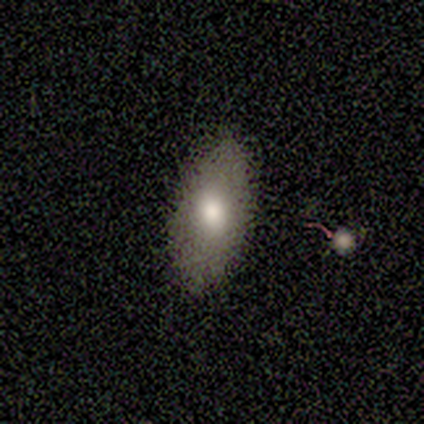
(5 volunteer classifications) Smooth or featured?
  - smooth: 100% *
  - featured or disk: 0%
  - star or artifact: 0%
How rounded?
  - in between: 80% *
  - cigar-shaped: 20%
  - round: 0%
Merging?
  - none: 100% *
  - minor disturbance: 0%
  - major disturbance: 0%
  - merger: 0%